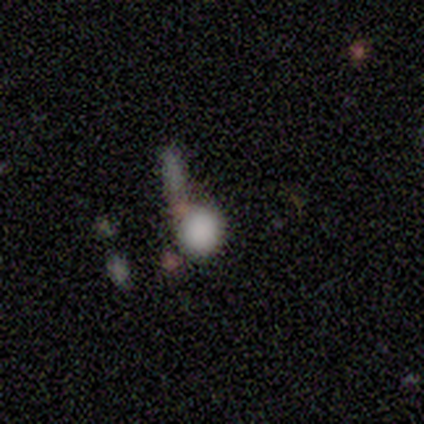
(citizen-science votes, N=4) This appears to be a smooth galaxy with no disk features (75%) that is in between round and cigar-shaped (67%). Merging: merger (67%).